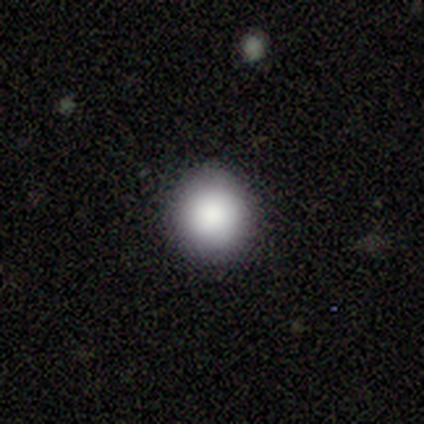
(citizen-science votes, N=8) A smooth galaxy with no disk features (100%) that is round (75%).

Vote fractions:
- Smooth or featured? smooth: 100% / featured or disk: 0% / star or artifact: 0%
- How rounded? round: 75% / in between: 25% / cigar-shaped: 0%
- Merging? none: 100% / minor disturbance: 0% / major disturbance: 0% / merger: 0%